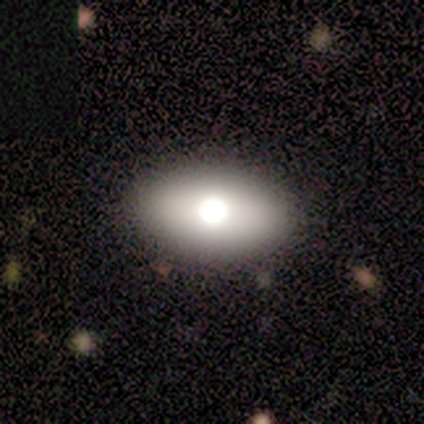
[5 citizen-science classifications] Smooth or featured? smooth (80%)
How rounded? in between (50%)
Merging? none (100%)